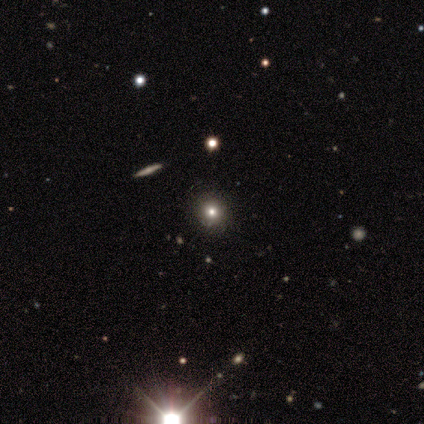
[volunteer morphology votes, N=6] This appears to be a smooth galaxy with no disk features (50%) that is round (67%). Merging: none (100%).